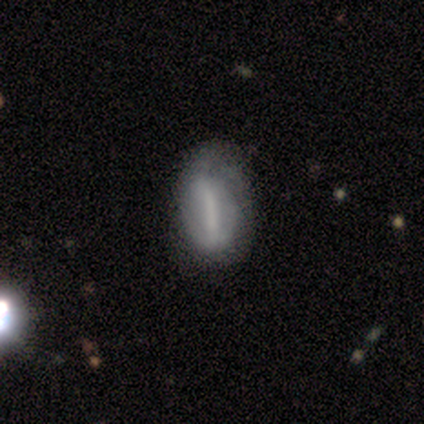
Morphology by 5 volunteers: This is likely a smooth galaxy (60%). How rounded: likely cigar-shaped (67%). Merging: likely none (60%).